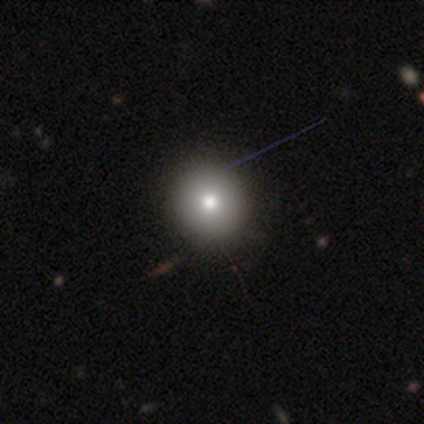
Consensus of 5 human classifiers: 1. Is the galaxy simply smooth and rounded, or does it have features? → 100% smooth, 0% featured or disk, 0% star or artifact.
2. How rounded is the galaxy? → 80% round, 20% in between, 0% cigar-shaped.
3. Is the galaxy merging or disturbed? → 100% none, 0% minor disturbance, 0% major disturbance, 0% merger.